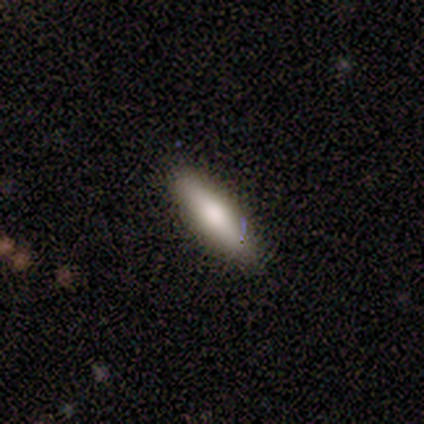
Q: Smooth or featured?
A: smooth (80%); runner-up: star or artifact (20%)
Q: How rounded?
A: in between (75%); runner-up: cigar-shaped (25%)
Q: Merging?
A: none (75%); runner-up: minor disturbance (25%)